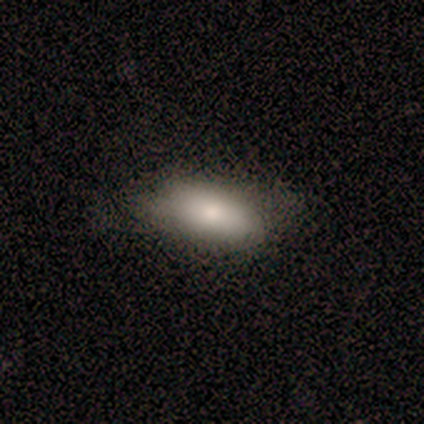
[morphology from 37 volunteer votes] smooth_or_featured: smooth (p=0.73) [alt: featured or disk p=0.16]
how_rounded: in between (p=0.93) [alt: round p=0.04]
merging: none (p=0.67) [alt: minor disturbance p=0.24]